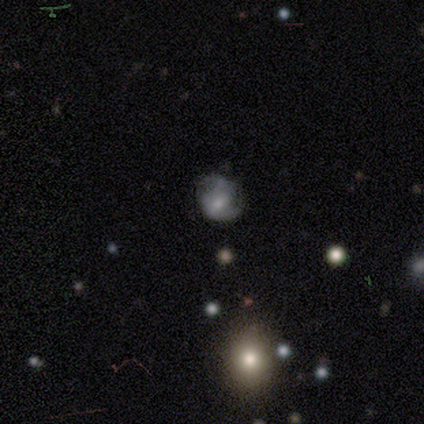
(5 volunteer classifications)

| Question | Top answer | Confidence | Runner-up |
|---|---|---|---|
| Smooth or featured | smooth | 40% | tied: featured or disk (40%) |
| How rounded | round | 100% | — |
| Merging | none | 75% | minor disturbance (25%) |